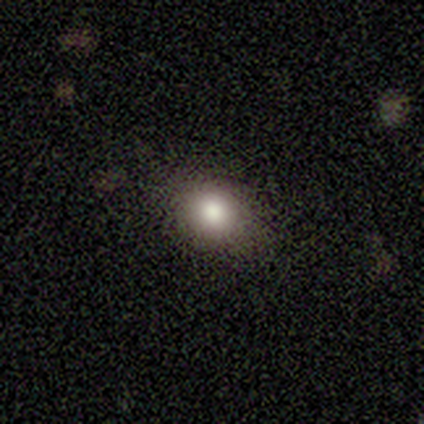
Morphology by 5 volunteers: A featured or disk galaxy (60%) with no bar (100%), no spiral arms (100%) and a dominant central bulge (67%).

Vote fractions:
- Smooth or featured? featured or disk: 60% / smooth: 20% / star or artifact: 20%
- Edge-on disk? no: 100% / yes: 0%
- Bar? no: 100% / strong: 0% / weak: 0%
- Spiral arms? no: 100% / yes: 0%
- Bulge size? dominant: 67% / large: 33% / moderate: 0% / small: 0% / none: 0%
- Merging? none: 100% / minor disturbance: 0% / major disturbance: 0% / merger: 0%